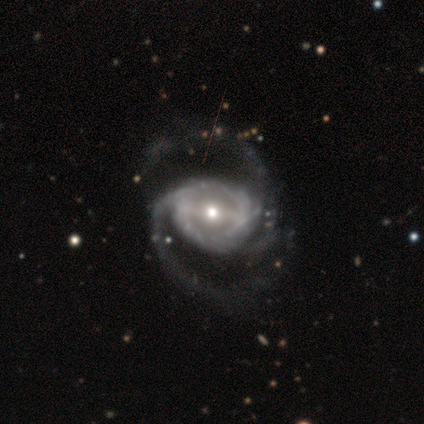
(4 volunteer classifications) Q: Smooth or featured?
A: featured or disk (100%)
Q: Edge-on disk?
A: no (100%)
Q: Bar?
A: strong (75%); runner-up: weak (25%)
Q: Spiral arms?
A: yes (100%)
Q: Spiral winding?
A: loose (50%); runner-up: tight (25%)
Q: Spiral arm count?
A: 2 (100%)
Q: Bulge size?
A: small (50%); runner-up: large (25%)
Q: Merging?
A: none (75%); runner-up: minor disturbance (25%)